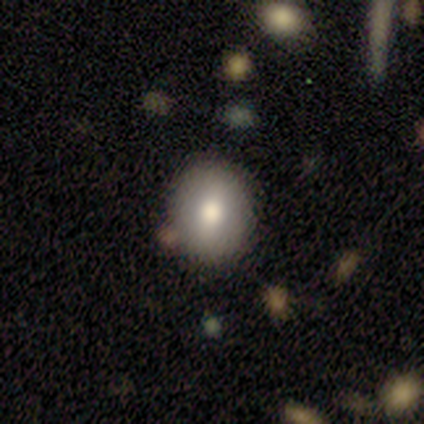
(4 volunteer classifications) Morphology: type=smooth (75%); roundness=round (67%); merging=none (100%).